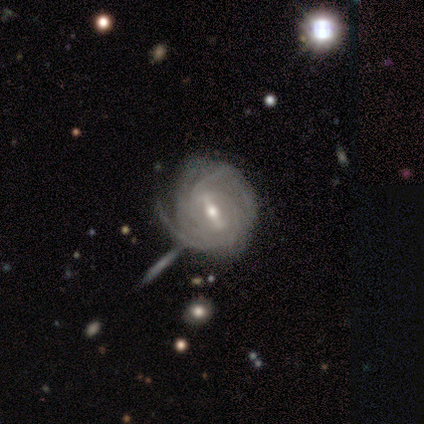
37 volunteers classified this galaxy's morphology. Overall: featured or disk (95%). Edge-on disk: no (100%). Bar: strong (66%). Spiral arms: yes (100%). Spiral arm count: can't tell (29%; 3 20%). Spiral winding: tight (83%). Bulge size: moderate (63%; small 34%). Merging: none (56%; minor disturbance 17%).